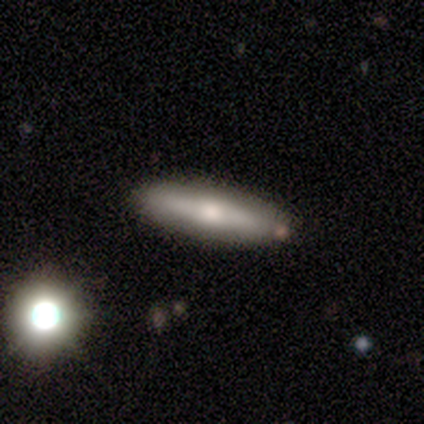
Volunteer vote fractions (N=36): smooth-or-featured: smooth: 58% | featured or disk: 39% | star or artifact: 3%
  how-rounded: cigar-shaped: 81% | in between: 19% | round: 0%
  merging: none: 80% | minor disturbance: 20% | major disturbance: 0% | merger: 0%